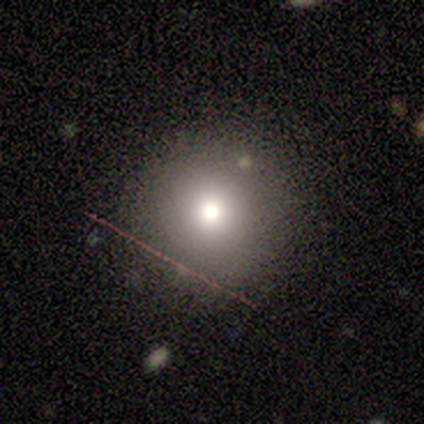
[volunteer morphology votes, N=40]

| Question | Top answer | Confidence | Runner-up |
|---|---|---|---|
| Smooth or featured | smooth | 72% | star or artifact (18%) |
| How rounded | round | 93% | in between (7%) |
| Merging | none | 85% | minor disturbance (9%) |